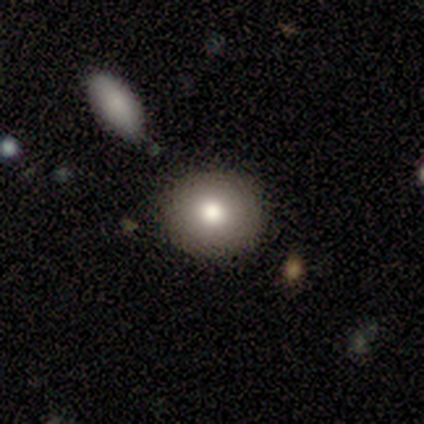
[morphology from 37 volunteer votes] This appears to be a smooth galaxy with no disk features (76%) that is round (82%). Merging: none (82%).